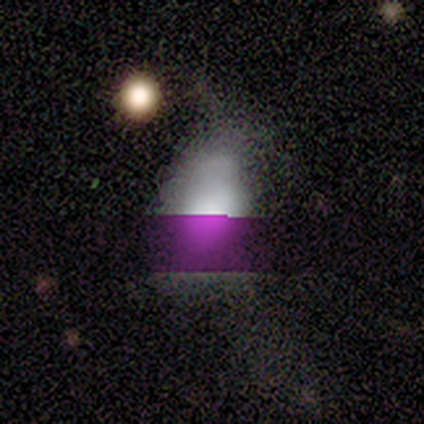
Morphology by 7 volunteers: smooth_or_featured: smooth (p=0.57) [alt: star or artifact p=0.29]
how_rounded: in between (p=0.75) [alt: round p=0.25]
merging: none (p=0.60) [alt: minor disturbance p=0.40]